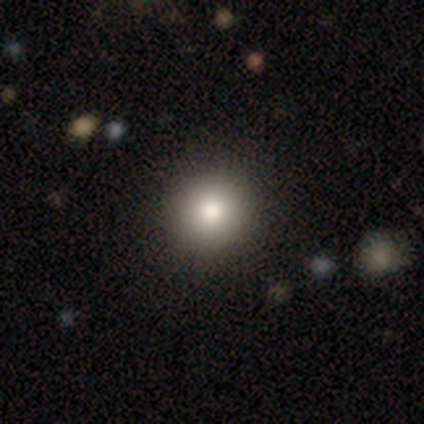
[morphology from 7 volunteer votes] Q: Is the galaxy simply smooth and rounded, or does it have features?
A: smooth — 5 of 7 (71%).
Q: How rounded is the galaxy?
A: round — 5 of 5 (100%).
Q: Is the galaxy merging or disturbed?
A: none — 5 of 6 (83%).